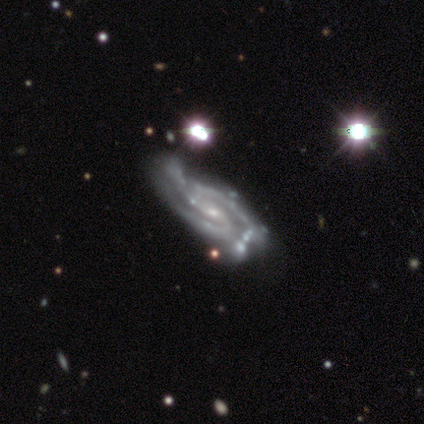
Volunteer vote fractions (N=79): Q: Smooth or featured?
A: featured or disk (96%); runner-up: star or artifact (4%)
Q: Edge-on disk?
A: no (96%); runner-up: yes (4%)
Q: Bar?
A: weak (52%); runner-up: no (27%)
Q: Spiral arms?
A: yes (100%)
Q: Spiral winding?
A: tight (47%); tied with: medium (47%)
Q: Spiral arm count?
A: 3 (63%); runner-up: 2 (25%)
Q: Bulge size?
A: small (73%); runner-up: moderate (19%)
Q: Merging?
A: none (29%); runner-up: minor disturbance (11%)